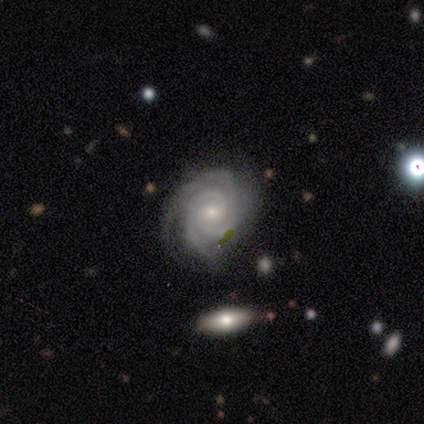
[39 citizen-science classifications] Q: Smooth or featured?
A: featured or disk (85%); runner-up: smooth (10%)
Q: Edge-on disk?
A: no (100%)
Q: Bar?
A: no (64%); runner-up: weak (33%)
Q: Spiral arms?
A: yes (100%)
Q: Spiral winding?
A: tight (82%); runner-up: medium (15%)
Q: Spiral arm count?
A: 2 (33%); runner-up: 3 (24%)
Q: Bulge size?
A: small (79%); runner-up: moderate (15%)
Q: Merging?
A: none (70%); runner-up: minor disturbance (27%)